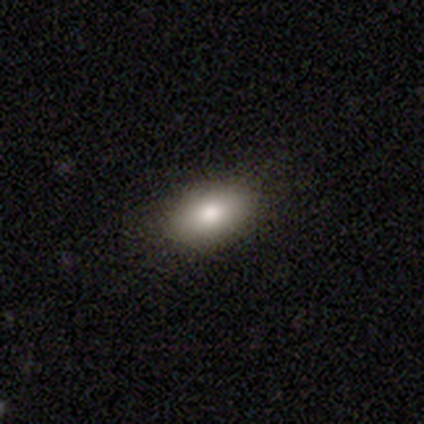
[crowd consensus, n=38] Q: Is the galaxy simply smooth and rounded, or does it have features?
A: smooth — 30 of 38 (79%).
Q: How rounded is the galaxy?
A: in between — 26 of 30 (87%).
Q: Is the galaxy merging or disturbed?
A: none — 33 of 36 (92%).